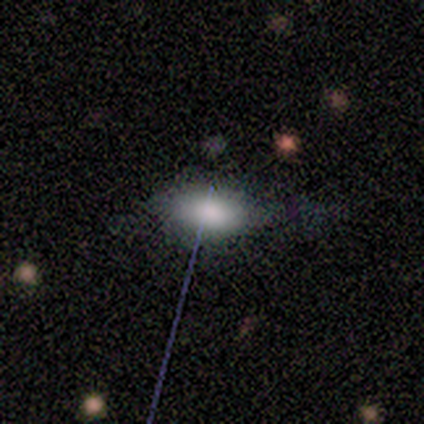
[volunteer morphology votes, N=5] Q: Smooth or featured?
A: smooth (60%); runner-up: star or artifact (40%)
Q: How rounded?
A: in between (100%)
Q: Merging?
A: none (67%); runner-up: minor disturbance (33%)